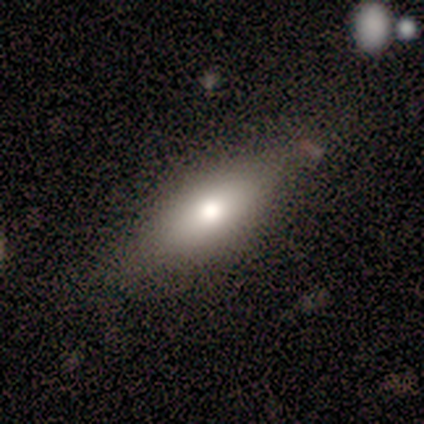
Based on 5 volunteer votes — smooth 80%, star or artifact 20%, featured or disk 0%. Down the decision tree: how rounded — in between (100%); merging — none (75%).